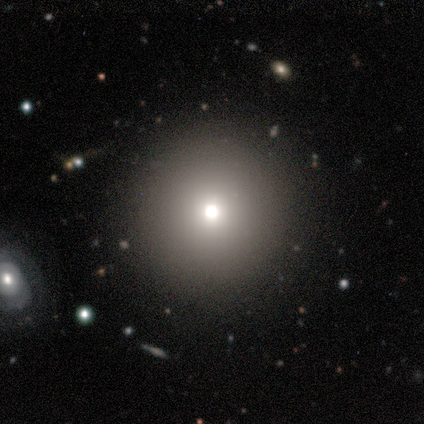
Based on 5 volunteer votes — A smooth galaxy with no disk features (60%) that is round (67%).

Vote fractions:
- Smooth or featured? smooth: 60% / featured or disk: 20% / star or artifact: 20%
- How rounded? round: 67% / in between: 33% / cigar-shaped: 0%
- Merging? none: 100% / minor disturbance: 0% / major disturbance: 0% / merger: 0%